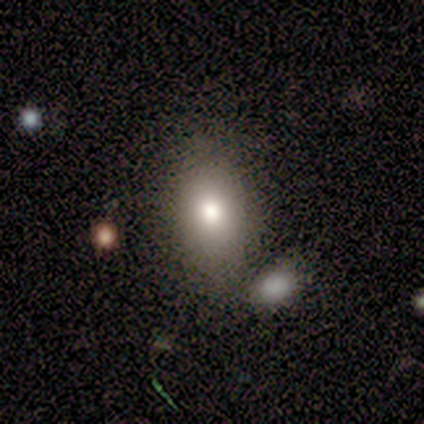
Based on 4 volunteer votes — Smooth or featured?
  - smooth: 100% *
  - featured or disk: 0%
  - star or artifact: 0%
How rounded?
  - in between: 100% *
  - round: 0%
  - cigar-shaped: 0%
Merging?
  - minor disturbance: 50% *
  - major disturbance: 25%
  - merger: 25%
  - none: 0%